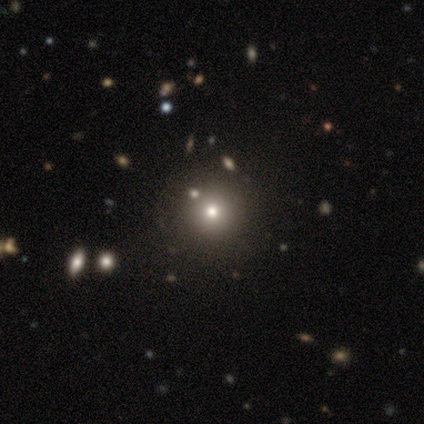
Volunteers were most divided on "smooth or featured" (2-way tie): smooth: 40%, featured or disk: 40%, star or artifact: 20%. More confident: how rounded — round (100%); merging — none (75%).